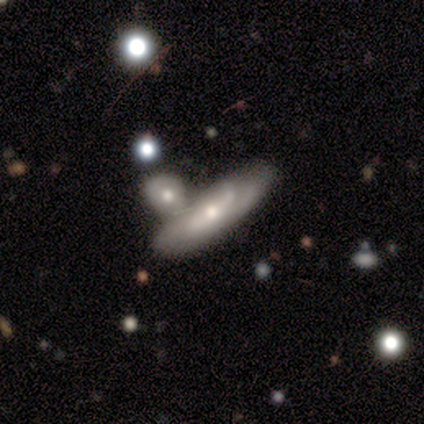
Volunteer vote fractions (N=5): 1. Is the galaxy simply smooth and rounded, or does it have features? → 100% featured or disk, 0% smooth, 0% star or artifact.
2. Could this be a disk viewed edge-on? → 100% no, 0% yes.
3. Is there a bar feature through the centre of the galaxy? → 60% no, 20% strong, 20% weak.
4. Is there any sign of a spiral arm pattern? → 80% yes, 20% no.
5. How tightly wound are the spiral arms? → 50% tight, 25% medium, 25% loose.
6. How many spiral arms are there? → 75% 2, 25% can't tell, 0% 1, 0% 3, 0% 4, 0% more than 4.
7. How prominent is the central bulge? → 80% moderate, 20% small, 0% dominant, 0% large, 0% none.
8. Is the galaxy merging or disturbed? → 60% none, 40% minor disturbance, 0% major disturbance, 0% merger.